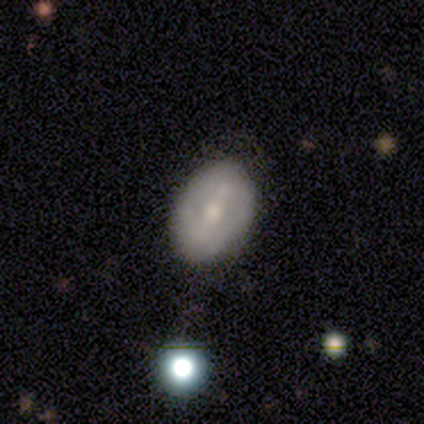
Smooth or featured: featured or disk — 57% (smooth — 43%)
Edge-on disk: no — 100%
Bar: no — 50% (strong — 25%)
Spiral arms: yes — 50% (tied with no — 50%)
Spiral winding: medium — 50% (tied with loose — 50%)
Spiral arm count: 2 — 50% (tied with can't tell — 50%)
Bulge size: moderate — 50% (tied with small — 50%)
Merging: none — 71% (merger — 29%)